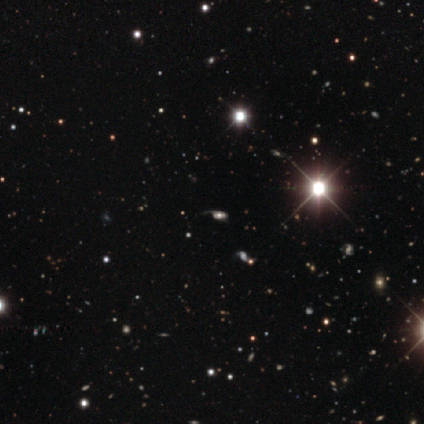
featured or disk 50% (tied), star or artifact 50% (tied), smooth 0%. Down the decision tree: edge-on disk — no (100%); bar — no (100%); spiral arms — yes (100%); spiral arm count — can't tell (67%); spiral winding — tight (67%); bulge size — moderate (100%); merging — none (67%).